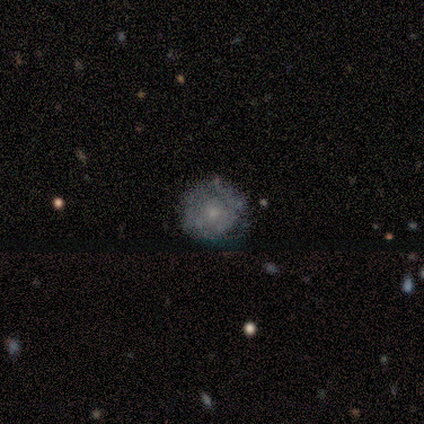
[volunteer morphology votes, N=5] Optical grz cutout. It shows a featured or disk galaxy (100%) with no bar (100%), no spiral arms (75%) and a small central bulge (50%). Merging: none (60%).